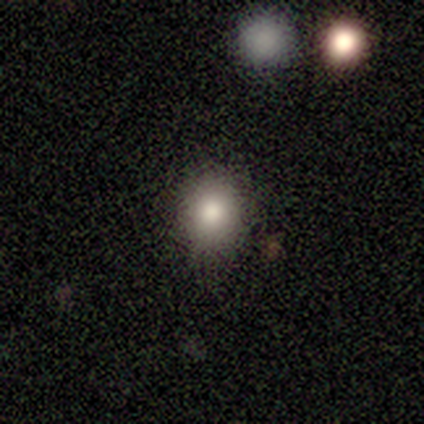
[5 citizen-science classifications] Smooth or featured?
  - smooth: 100% *
  - featured or disk: 0%
  - star or artifact: 0%
How rounded?
  - round: 80% *
  - in between: 20%
  - cigar-shaped: 0%
Merging?
  - none: 80% *
  - minor disturbance: 20%
  - major disturbance: 0%
  - merger: 0%